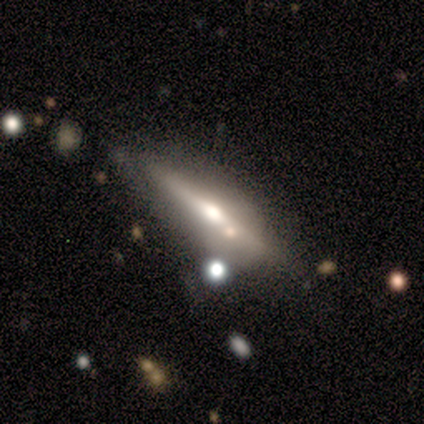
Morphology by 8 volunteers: This is likely a smooth galaxy (62%). How rounded: likely in between (60%). Merging: clearly none (100%).